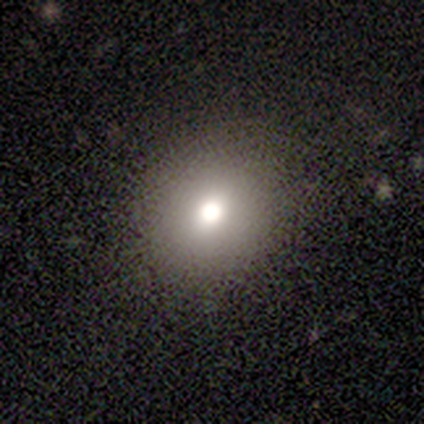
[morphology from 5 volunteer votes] Volunteers were most divided on "smooth or featured": smooth: 60%, featured or disk: 40%, star or artifact: 0%. More confident: merging — none (80%); how rounded — in between (67%).